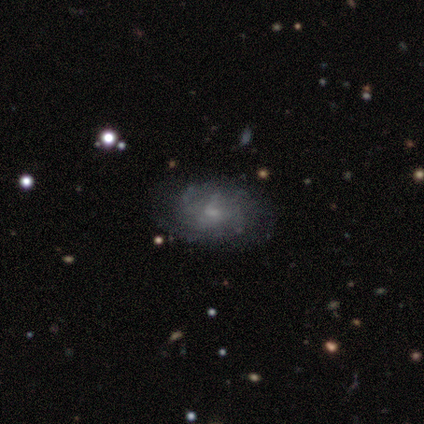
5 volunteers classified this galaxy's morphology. smooth-or-featured: featured or disk: 100% | smooth: 0% | star or artifact: 0%
  disk-edge-on: no: 100% | yes: 0%
    bar: no: 80% | weak: 20% | strong: 0%
    has-spiral-arms: yes: 80% | no: 20%
      spiral-winding: tight: 50% | medium: 25% | loose: 25%
      spiral-arm-count: 2: 50% | more than 4: 25% | can't tell: 25% | 1: 0% | 3: 0% | 4: 0%
    bulge-size: small: 100% | dominant: 0% | large: 0% | moderate: 0% | none: 0%
  merging: none: 80% | minor disturbance: 20% | major disturbance: 0% | merger: 0%